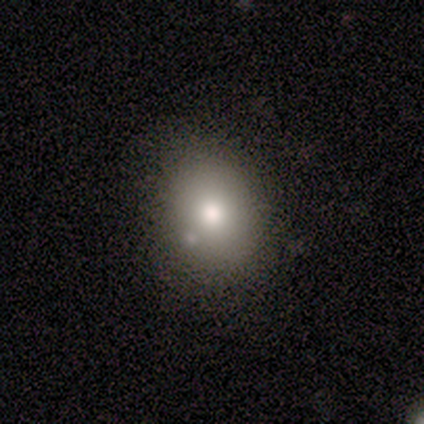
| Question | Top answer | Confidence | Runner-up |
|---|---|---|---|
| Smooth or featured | star or artifact | 50% | smooth (25%) |